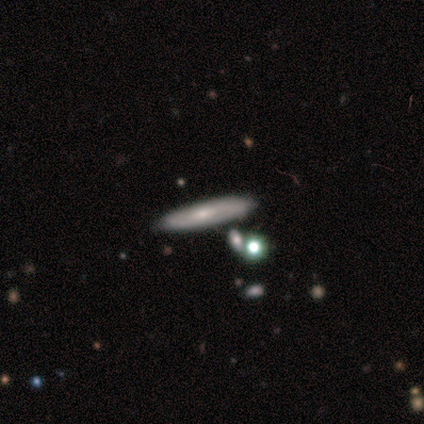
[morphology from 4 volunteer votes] Q: Smooth or featured?
A: smooth (50%); runner-up: featured or disk (25%)
Q: How rounded?
A: in between (50%); tied with: cigar-shaped (50%)
Q: Merging?
A: none (67%); runner-up: minor disturbance (33%)